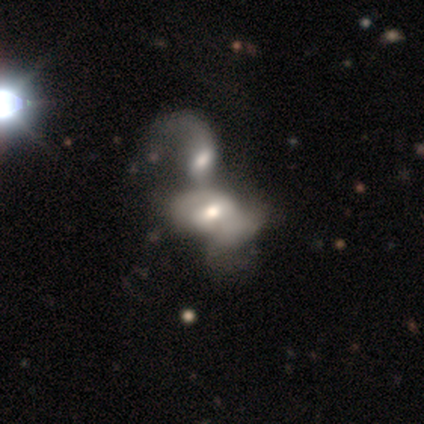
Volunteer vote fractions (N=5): Overall: featured or disk (80%). Edge-on disk: no (75%). Bar: strong (67%; no 33%). Spiral arms: yes (100%). Spiral arm count: 2 (67%; 1 33%). Spiral winding: tight (33%, tied with medium and loose). Bulge size: moderate (67%; small 33%). Merging: merger (100%).